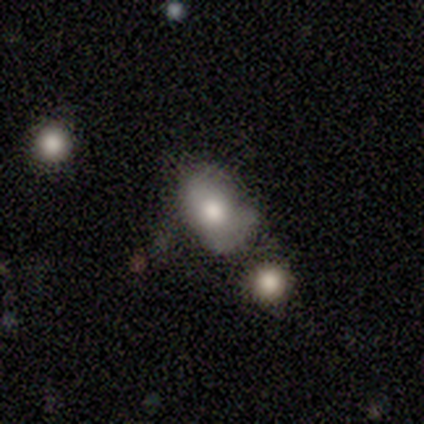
Volunteers were most divided on "bulge size" (3-way tie): large: 33%, moderate: 33%, small: 33%, dominant: 0%, none: 0%; "merging" (2-way tie): minor disturbance: 40%, merger: 40%, major disturbance: 20%, none: 0%. More confident: edge-on disk — no (100%); bar — no (100%); spiral arms — no (100%); smooth or featured — featured or disk (60%).